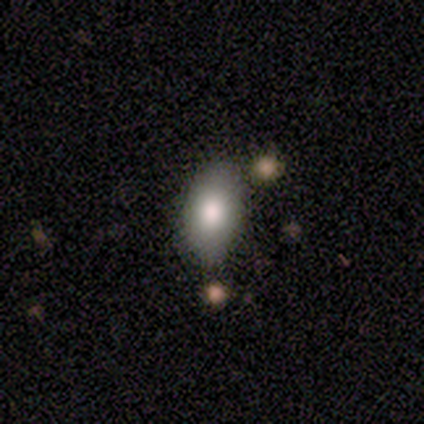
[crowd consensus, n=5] smooth_or_featured: featured or disk (p=0.60) [alt: smooth p=0.40]
disk_edge_on: no (p=1.00)
bar: no (p=0.67) [alt: weak p=0.33]
has_spiral_arms: no (p=1.00)
bulge_size: moderate (p=0.67) [alt: dominant p=0.33]
merging: none (p=0.60) [alt: minor disturbance p=0.20]